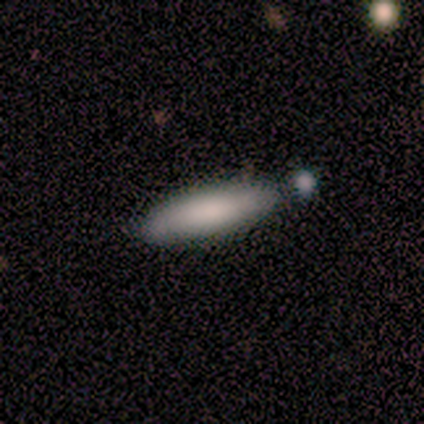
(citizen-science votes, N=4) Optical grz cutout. It shows a smooth galaxy with no disk features (100%) that is cigar-shaped (100%). Merging: none (75%).